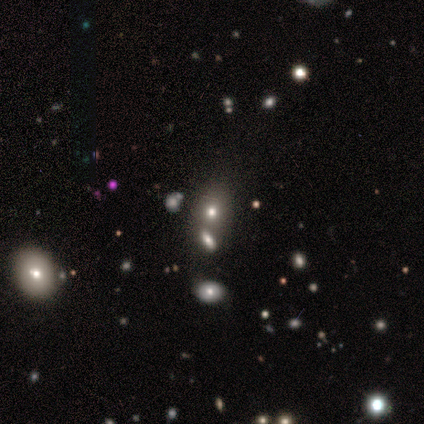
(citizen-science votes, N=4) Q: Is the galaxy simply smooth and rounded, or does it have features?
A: smooth — 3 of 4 (75%).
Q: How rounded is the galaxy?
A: in between — 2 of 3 (67%).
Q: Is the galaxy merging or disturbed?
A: none — 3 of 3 (100%).